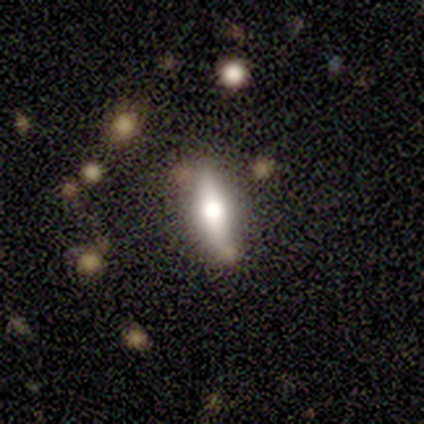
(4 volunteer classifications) A featured or disk galaxy (50%) viewed edge-on (50%, tied with no) with a rounded central bulge (100%). Merging: minor disturbance (67%).